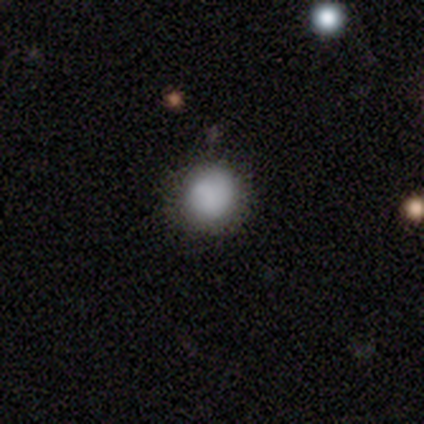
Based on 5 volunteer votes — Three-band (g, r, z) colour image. It shows a smooth galaxy with no disk features (80%) that is round (75%). Merging: none (100%).